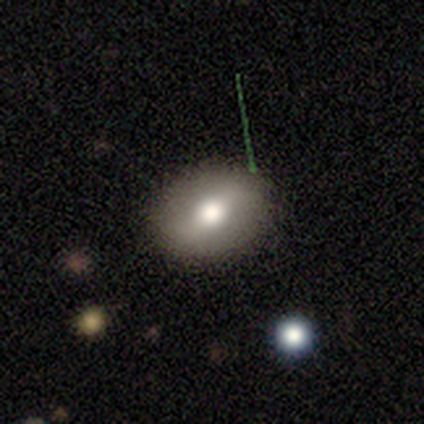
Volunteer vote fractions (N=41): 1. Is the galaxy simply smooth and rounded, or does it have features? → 61% smooth, 39% featured or disk, 0% star or artifact.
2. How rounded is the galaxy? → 68% in between, 32% round, 0% cigar-shaped.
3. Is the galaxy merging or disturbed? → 63% none, 17% minor disturbance, 2% major disturbance, 0% merger.